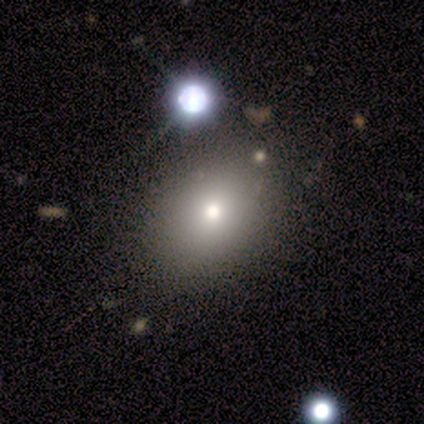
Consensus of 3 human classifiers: smooth-or-featured: smooth: 100% | featured or disk: 0% | star or artifact: 0%
  how-rounded: in between: 67% | round: 33% | cigar-shaped: 0%
  merging: none: 100% | minor disturbance: 0% | major disturbance: 0% | merger: 0%